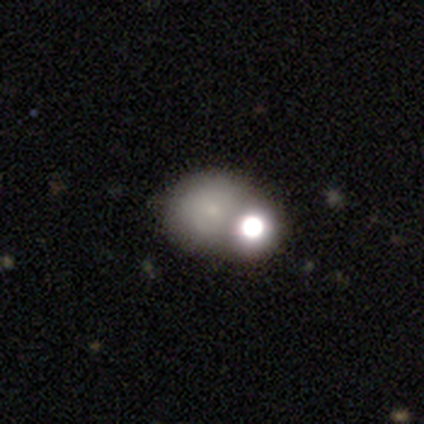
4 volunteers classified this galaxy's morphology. smooth 100%, featured or disk 0%, star or artifact 0%. Down the decision tree: how rounded — round (50%, tied with in between); merging — merger (50%).